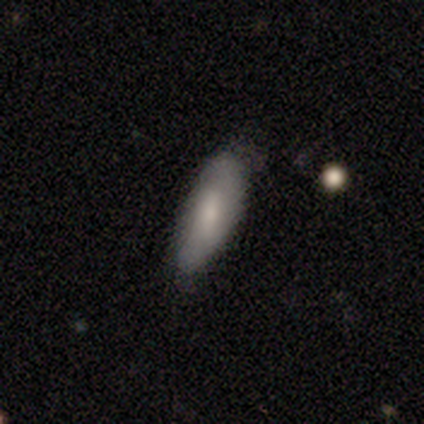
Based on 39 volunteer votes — smooth_or_featured: smooth (p=0.69) [alt: featured or disk p=0.31]
how_rounded: in between (p=0.56) [alt: cigar-shaped p=0.41]
merging: none (p=0.62) [alt: minor disturbance p=0.36]